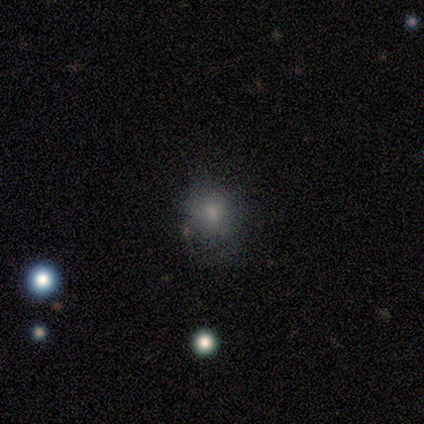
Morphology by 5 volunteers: Volunteers were most divided on "merging": none: 50%, minor disturbance: 25%, major disturbance: 25%, merger: 0%. More confident: how rounded — round (100%); smooth or featured — smooth (60%).